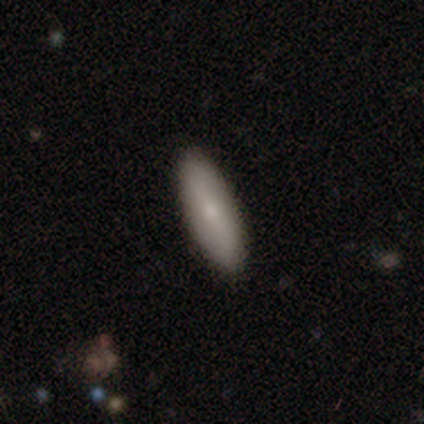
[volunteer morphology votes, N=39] Smooth or featured? 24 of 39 (62%) said smooth. How rounded? 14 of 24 (58%) said in between. Merging? 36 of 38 (95%) said none.